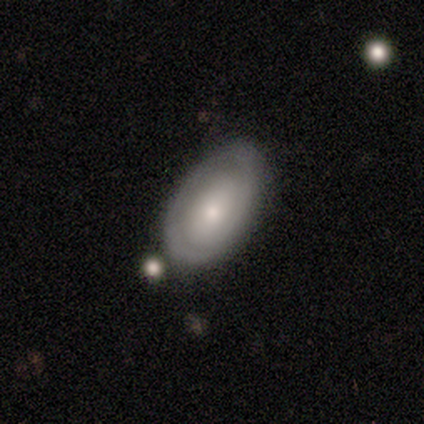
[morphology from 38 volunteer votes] type=featured or disk (53%); edge-on=no (85%); bar=no (71%); spiral arms=yes (53%); winding=tight (56%); arm count=1 (56%); bulge=moderate (53%); merging=none (83%).